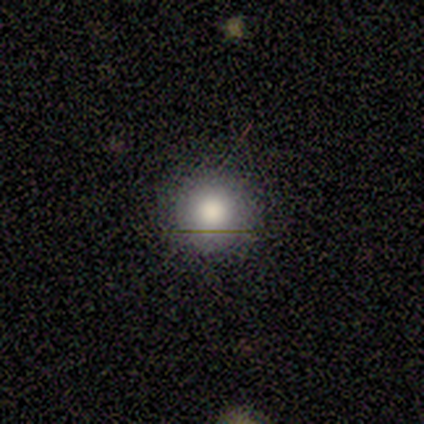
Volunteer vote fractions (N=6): smooth-or-featured: smooth: 100% | featured or disk: 0% | star or artifact: 0%
  how-rounded: round: 100% | in between: 0% | cigar-shaped: 0%
  merging: none: 100% | minor disturbance: 0% | major disturbance: 0% | merger: 0%